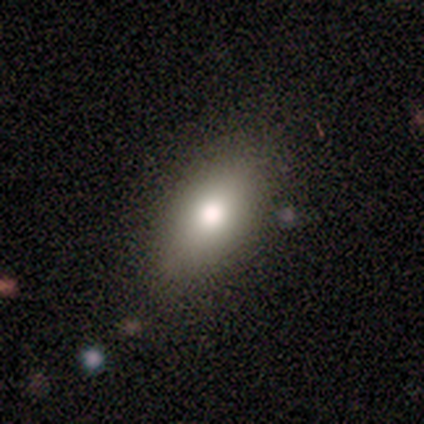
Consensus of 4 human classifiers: A smooth galaxy with no disk features (75%) that is in between round and cigar-shaped (100%). Merging: none (100%).